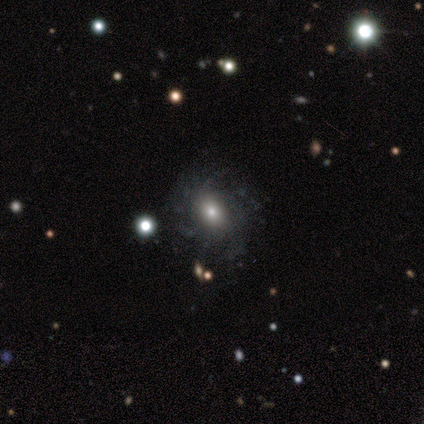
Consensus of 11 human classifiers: featured or disk 55%, smooth 36%, star or artifact 9%. Down the decision tree: edge-on disk — no (100%); bar — no (100%); spiral arms — yes (83%); spiral arm count — can't tell (80%); spiral winding — medium (60%); bulge size — moderate (67%); merging — none (70%).